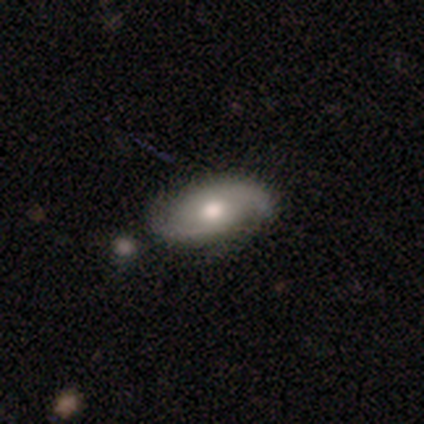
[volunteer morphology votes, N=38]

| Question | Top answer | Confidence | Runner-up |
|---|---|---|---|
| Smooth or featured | featured or disk | 71% | smooth (24%) |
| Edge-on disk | no | 89% | yes (11%) |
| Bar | no | 71% | weak (25%) |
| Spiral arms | yes | 92% | no (8%) |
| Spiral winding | medium | 45% | tied: loose (45%) |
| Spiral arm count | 2 | 77% | can't tell (18%) |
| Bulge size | moderate | 79% | large (12%) |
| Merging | none | 69% | minor disturbance (19%) |